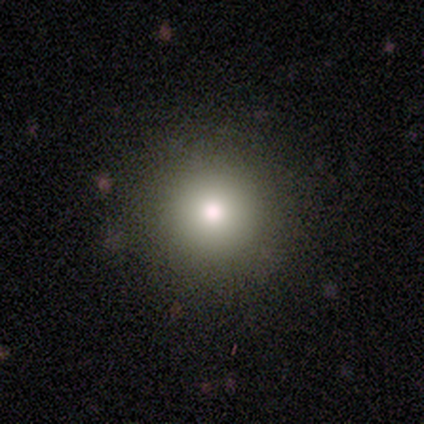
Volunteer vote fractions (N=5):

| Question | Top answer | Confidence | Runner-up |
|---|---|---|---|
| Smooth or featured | smooth | 100% | — |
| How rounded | round | 100% | — |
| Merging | none | 100% | — |